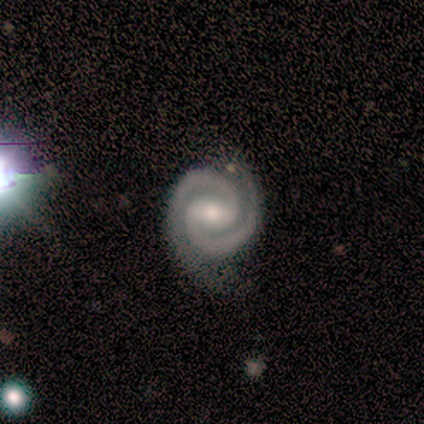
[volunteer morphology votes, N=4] Smooth or featured? 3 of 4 (75%) said featured or disk. Edge-on disk? 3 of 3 (100%) said no. Bar? 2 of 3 (67%) said no. Spiral arms? 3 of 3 (100%) said yes. Spiral winding? 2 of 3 (67%) said tight. Spiral arm count? 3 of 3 (100%) said 2. Bulge size? 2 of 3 (67%) said small. Merging? 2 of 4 (50%, tied with major disturbance) said none.